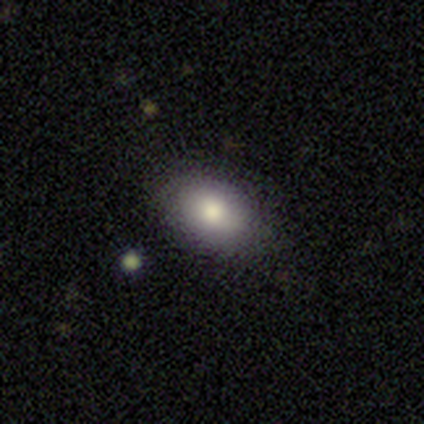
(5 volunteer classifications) Overall: smooth (100%). How rounded: in between (100%). Merging: none (100%).